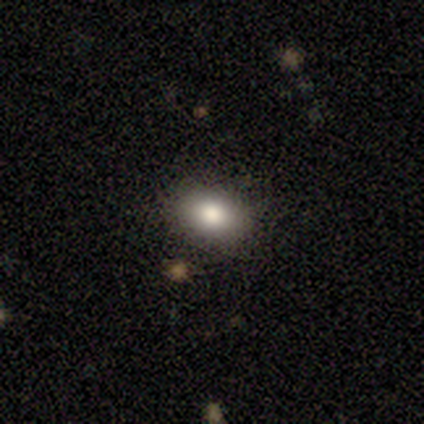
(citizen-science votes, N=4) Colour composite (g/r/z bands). It shows a smooth galaxy with no disk features (75%) that is in between round and cigar-shaped (100%). Merging: none (100%).